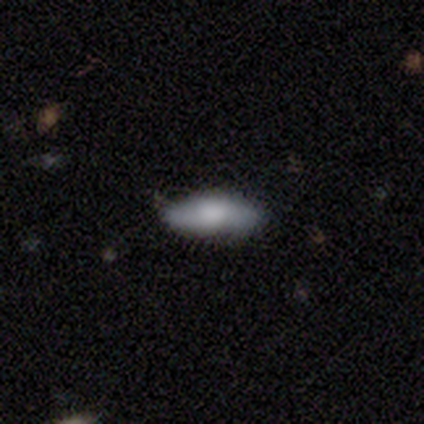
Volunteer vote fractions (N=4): A smooth galaxy with no disk features (75%) that is in between round and cigar-shaped (67%).

Vote fractions:
- Smooth or featured? smooth: 75% / featured or disk: 25% / star or artifact: 0%
- How rounded? in between: 67% / cigar-shaped: 33% / round: 0%
- Merging? none: 100% / minor disturbance: 0% / major disturbance: 0% / merger: 0%